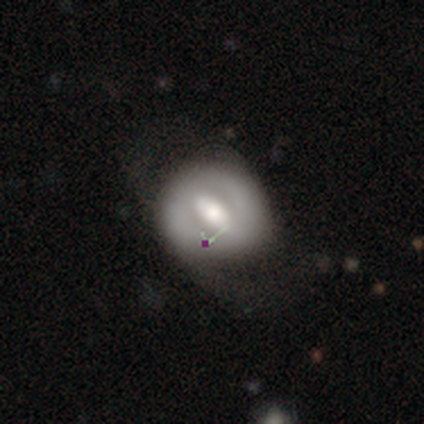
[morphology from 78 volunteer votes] Smooth or featured? featured or disk (62%)
Edge-on disk? no (100%)
Bar? strong (48%)
Spiral arms? no (67%)
Bulge size? moderate (56%)
Merging? none (32%)